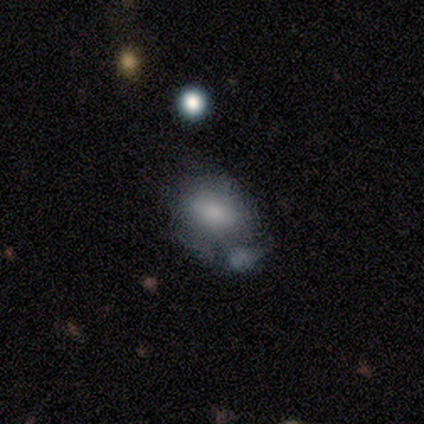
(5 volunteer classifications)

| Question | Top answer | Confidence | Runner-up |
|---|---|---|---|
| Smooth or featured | smooth | 80% | featured or disk (20%) |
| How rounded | round | 75% | in between (25%) |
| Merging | merger | 40% | none (20%) |